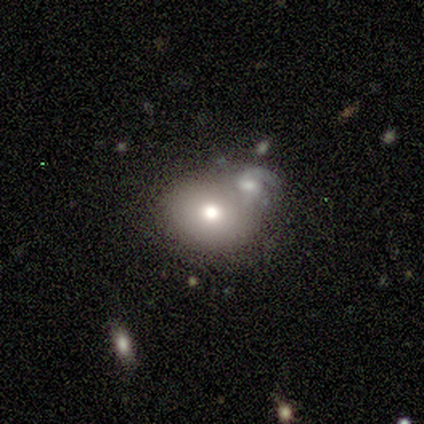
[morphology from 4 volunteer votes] This is likely a smooth galaxy (75%). How rounded: likely in between (67%). Merging: possibly none (50%).